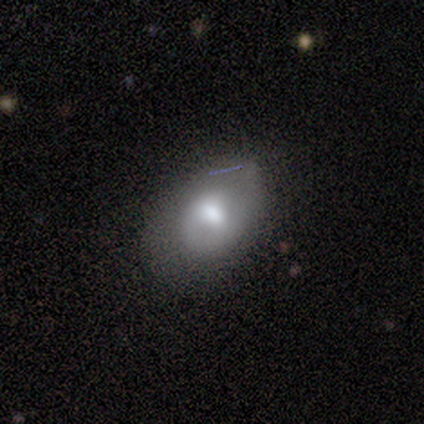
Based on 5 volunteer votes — This is clearly a smooth galaxy (80%). How rounded: likely in between (75%). Merging: likely none (60%).